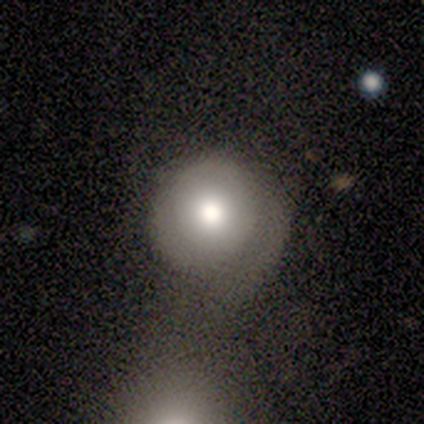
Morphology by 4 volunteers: Q: Smooth or featured?
A: smooth (50%); tied with: featured or disk (50%)
Q: How rounded?
A: round (100%)
Q: Merging?
A: merger (50%); runner-up: none (25%)